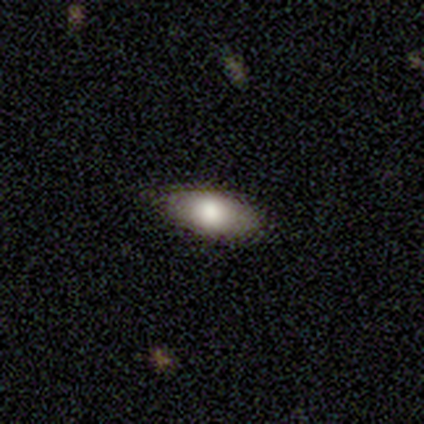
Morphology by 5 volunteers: smooth-or-featured: smooth: 60% | featured or disk: 20% | star or artifact: 20%
  how-rounded: in between: 100% | round: 0% | cigar-shaped: 0%
  merging: none: 75% | minor disturbance: 25% | major disturbance: 0% | merger: 0%